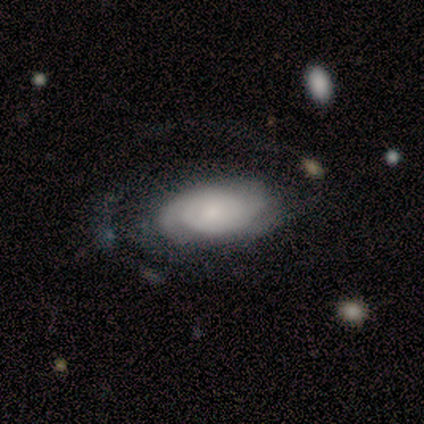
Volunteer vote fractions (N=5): Overall: featured or disk (60%; smooth 40%). Edge-on disk: no (100%). Bar: no (67%; weak 33%). Spiral arms: no (67%; yes 33%). Bulge size: moderate (67%; small 33%). Merging: none (40%, tied with minor disturbance).